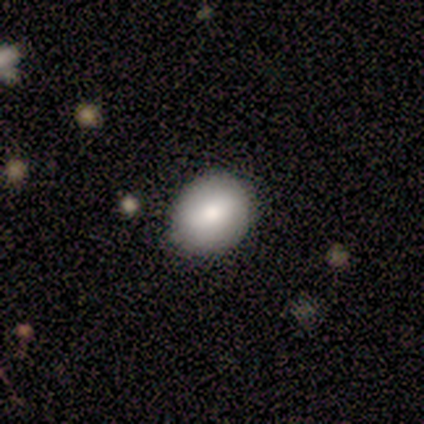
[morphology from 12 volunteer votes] This is clearly a smooth galaxy (92%). How rounded: possibly round (55%). Merging: clearly none (82%).